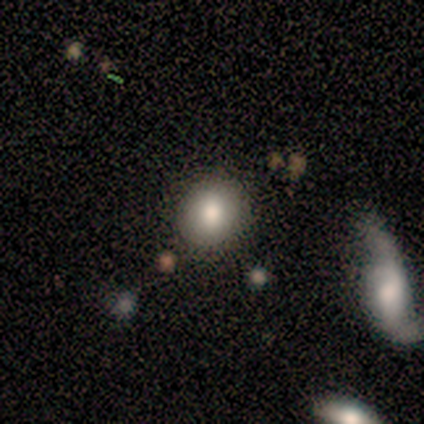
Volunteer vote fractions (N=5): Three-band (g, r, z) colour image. It shows a smooth galaxy with no disk features (80%) that is round (75%). Merging: none (100%).